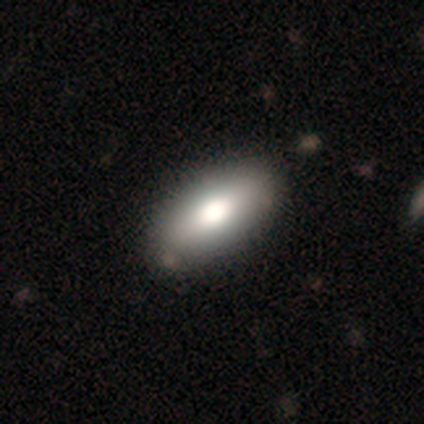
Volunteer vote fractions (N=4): Overall: smooth (75%). How rounded: in between (67%; cigar-shaped 33%). Merging: minor disturbance (50%; none 25%).